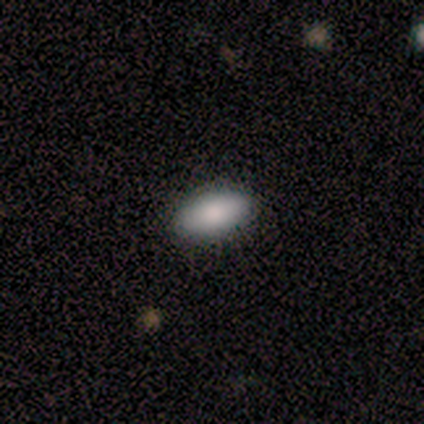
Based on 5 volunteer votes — This appears to be a smooth galaxy with no disk features (100%) that is in between round and cigar-shaped (100%). Merging: none (80%).